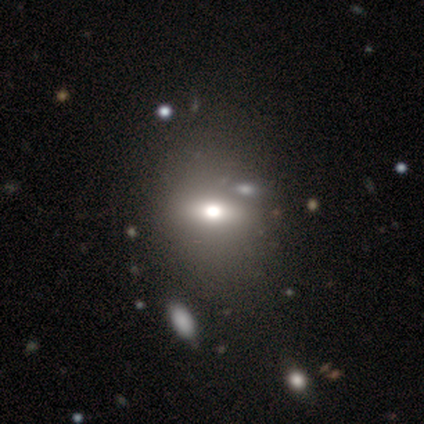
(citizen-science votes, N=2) Q: Smooth or featured?
A: smooth (100%)
Q: How rounded?
A: round (50%); tied with: in between (50%)
Q: Merging?
A: minor disturbance (50%); tied with: major disturbance (50%)